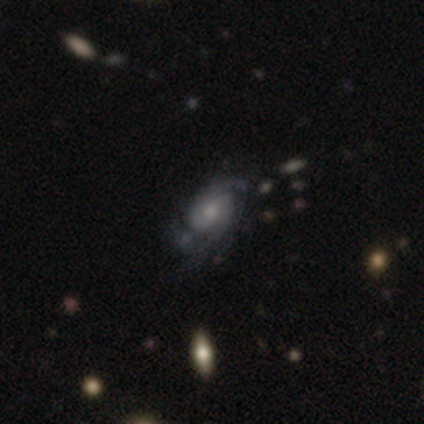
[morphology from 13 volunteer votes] type=featured or disk (77%); edge-on=no (100%); bar=no (80%); spiral arms=yes (80%); winding=tight (38%, tied with loose); arm count=2 (50%); bulge=moderate (50%); merging=none (60%).